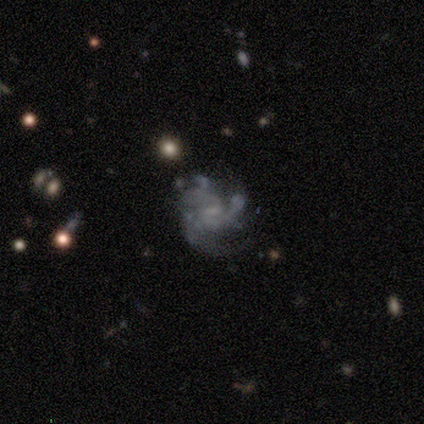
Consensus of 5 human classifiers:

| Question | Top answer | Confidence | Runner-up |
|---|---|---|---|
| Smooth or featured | featured or disk | 100% | — |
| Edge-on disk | no | 100% | — |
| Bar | no | 60% | weak (40%) |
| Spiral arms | yes | 100% | — |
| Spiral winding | tight | 80% | medium (20%) |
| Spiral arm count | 3 | 60% | can't tell (40%) |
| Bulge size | none | 60% | moderate (40%) |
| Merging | none | 80% | minor disturbance (20%) |